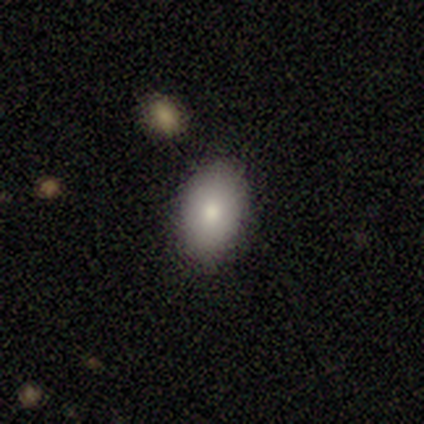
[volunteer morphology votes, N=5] Smooth or featured: smooth — 80% (featured or disk — 20%)
How rounded: in between — 100%
Merging: none — 60% (minor disturbance — 40%)